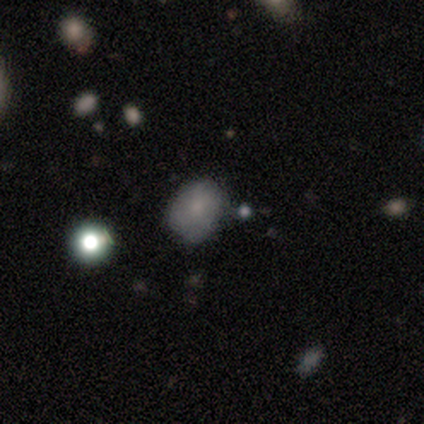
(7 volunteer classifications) Overall: featured or disk (57%; smooth 29%). Edge-on disk: no (100%). Bar: no (100%). Spiral arms: yes (50%, tied with no). Spiral arm count: 3 (50%, tied with 4). Spiral winding: tight (50%, tied with loose). Bulge size: small (100%). Merging: none (50%, tied with minor disturbance).